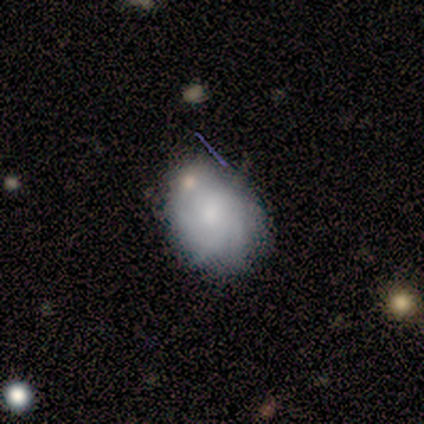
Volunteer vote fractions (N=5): Smooth or featured? featured or disk (60%)
Edge-on disk? no (100%)
Bar? no (100%)
Spiral arms? yes (67%)
Spiral winding? tight (50%, tied with loose)
Spiral arm count? 3 (50%, tied with can't tell)
Bulge size? moderate (67%)
Merging? minor disturbance (60%)